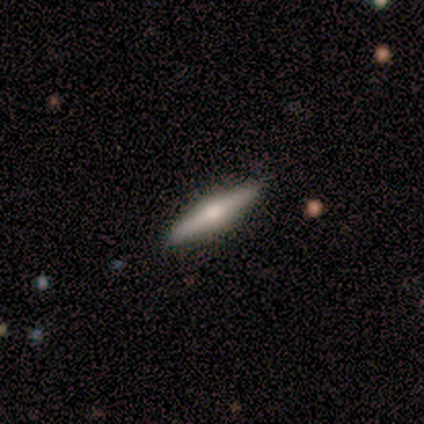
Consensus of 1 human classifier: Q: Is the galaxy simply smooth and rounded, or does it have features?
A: featured or disk — 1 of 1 (100%).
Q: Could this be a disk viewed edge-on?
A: yes — 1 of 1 (100%).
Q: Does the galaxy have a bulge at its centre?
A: rounded — 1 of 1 (100%).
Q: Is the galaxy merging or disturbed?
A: none — 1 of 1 (100%).